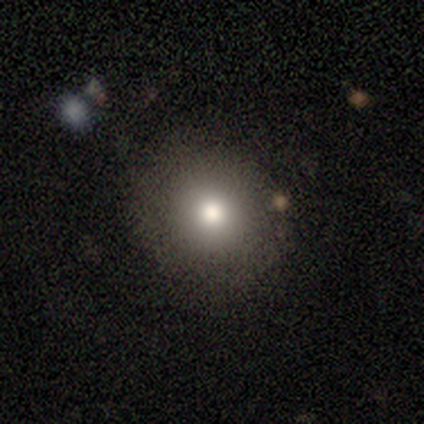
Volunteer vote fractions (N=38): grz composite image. It shows a smooth galaxy with no disk features (82%) that is round (81%). Merging: none (88%).